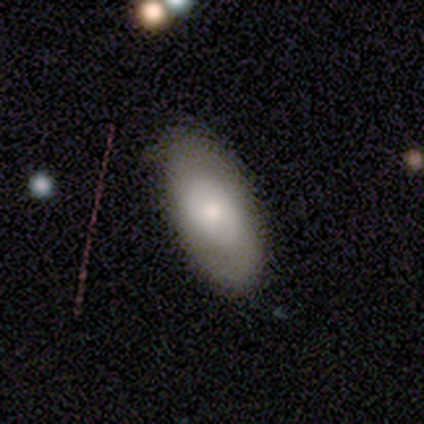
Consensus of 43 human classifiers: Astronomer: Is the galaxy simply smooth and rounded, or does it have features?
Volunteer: featured or disk — 51% (runner-up: smooth, 49%).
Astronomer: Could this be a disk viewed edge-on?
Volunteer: no — 100%.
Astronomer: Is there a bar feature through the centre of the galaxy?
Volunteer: no — 86%.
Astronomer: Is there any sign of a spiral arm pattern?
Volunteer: no — 73%.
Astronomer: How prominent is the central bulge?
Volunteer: moderate — 36%, tied with small at 36%.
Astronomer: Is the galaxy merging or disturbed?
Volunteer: none — 67%.